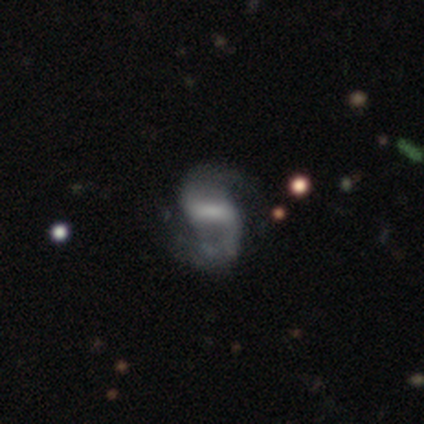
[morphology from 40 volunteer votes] smooth-or-featured: featured or disk: 88% | smooth: 8% | star or artifact: 5%
  disk-edge-on: no: 100% | yes: 0%
    bar: strong: 49% | weak: 40% | no: 11%
    has-spiral-arms: yes: 94% | no: 6%
      spiral-winding: loose: 48% | medium: 45% | tight: 6%
      spiral-arm-count: 2: 94% | 1: 3% | can't tell: 3% | 3: 0% | 4: 0% | more than 4: 0%
    bulge-size: none: 46% | moderate: 34% | small: 9% | dominant: 6% | large: 6%
  merging: none: 66% | minor disturbance: 24% | major disturbance: 11% | merger: 0%